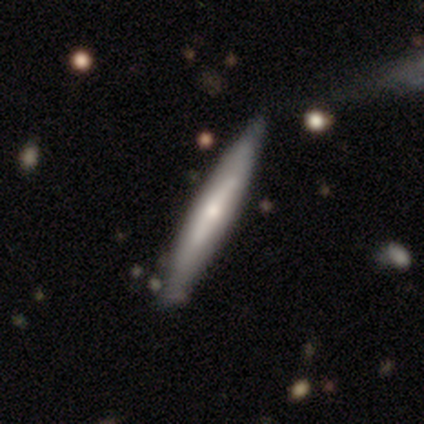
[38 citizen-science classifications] Morphology: type=featured or disk (66%); edge-on=yes (96%); edge-on bulge=rounded (67%); merging=none (81%).